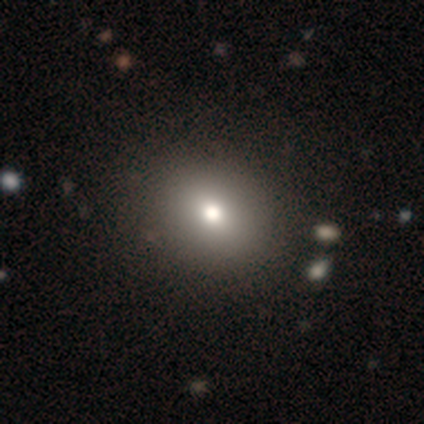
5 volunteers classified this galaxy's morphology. Volunteers were most divided on "smooth or featured": smooth: 60%, star or artifact: 40%, featured or disk: 0%. More confident: how rounded — round (67%); merging — none (67%).